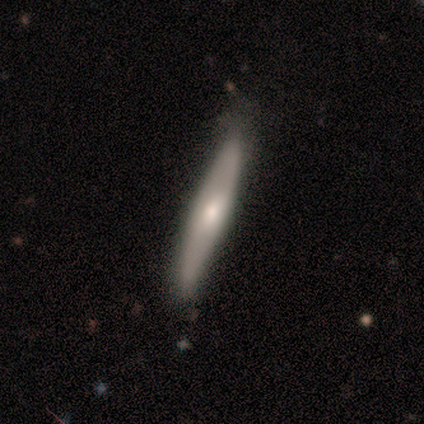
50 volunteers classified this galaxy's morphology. Volunteers were most divided on "smooth or featured": smooth: 50%, featured or disk: 46%, star or artifact: 4%. More confident: how rounded — cigar-shaped (96%); merging — none (81%).